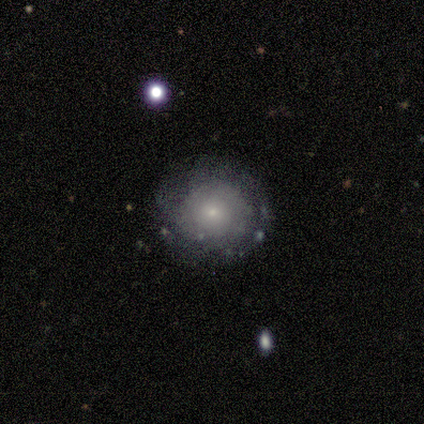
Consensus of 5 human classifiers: Smooth or featured?
  - featured or disk: 60% *
  - smooth: 40%
  - star or artifact: 0%
Edge-on disk?
  - no: 100% *
  - yes: 0%
Bar?
  - no: 100% *
  - strong: 0%
  - weak: 0%
Spiral arms?
  - yes: 100% *
  - no: 0%
Spiral winding?
  - tight: 67% *
  - medium: 33%
  - loose: 0%
Spiral arm count?
  - more than 4: 67% *
  - 2: 33%
  - 1: 0%
  - 3: 0%
  - 4: 0%
  - can't tell: 0%
Bulge size?
  - small: 100% *
  - dominant: 0%
  - large: 0%
  - moderate: 0%
  - none: 0%
Merging?
  - none: 60% *
  - minor disturbance: 40%
  - major disturbance: 0%
  - merger: 0%